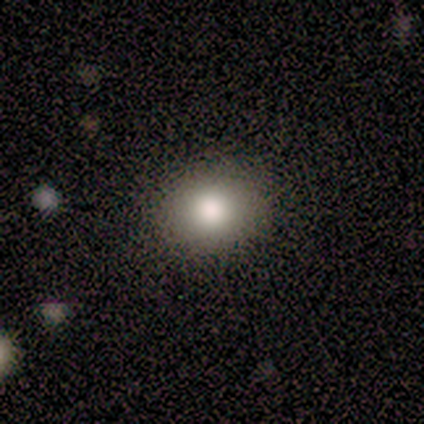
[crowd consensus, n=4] smooth_or_featured: smooth (p=1.00)
how_rounded: round (p=0.75) [alt: in between p=0.25]
merging: none (p=0.75) [alt: minor disturbance p=0.25]